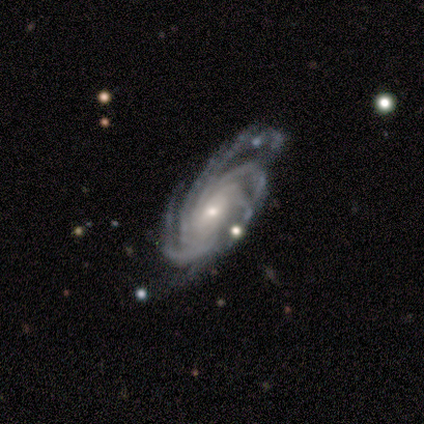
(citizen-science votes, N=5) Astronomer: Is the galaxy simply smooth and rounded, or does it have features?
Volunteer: featured or disk — 80%.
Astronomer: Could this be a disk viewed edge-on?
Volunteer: no — 75%.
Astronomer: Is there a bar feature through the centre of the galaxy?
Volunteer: no — 100%.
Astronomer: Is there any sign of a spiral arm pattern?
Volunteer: yes — 100%.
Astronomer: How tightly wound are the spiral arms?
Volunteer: tight — 67%.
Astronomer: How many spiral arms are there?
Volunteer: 4 — 67%.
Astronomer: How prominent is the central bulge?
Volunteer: small — 67%.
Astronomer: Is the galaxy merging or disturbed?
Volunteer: none — 50%, tied with minor disturbance at 50%.